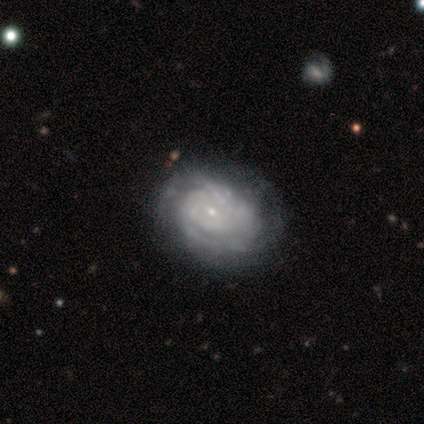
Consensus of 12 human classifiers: Morphology: type=featured or disk (75%); edge-on=no (100%); bar=no (56%); spiral arms=yes (78%); winding=tight (71%); arm count=can't tell (57%); bulge=small (89%); merging=none (73%).